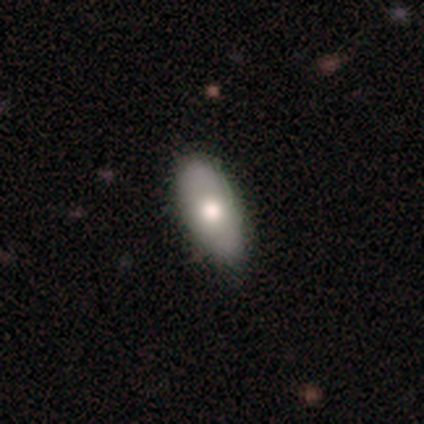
smooth-or-featured: smooth: 70% | featured or disk: 18% | star or artifact: 12%
  how-rounded: in between: 93% | cigar-shaped: 7% | round: 0%
  merging: none: 83% | minor disturbance: 14% | major disturbance: 3% | merger: 0%